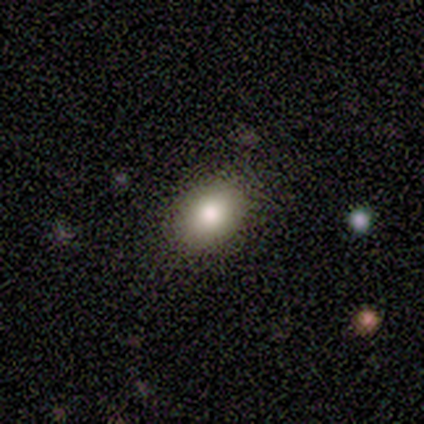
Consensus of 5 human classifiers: This appears to be a star or artifact, not a galaxy (60%).